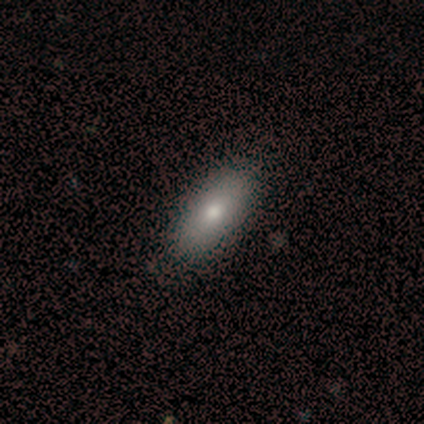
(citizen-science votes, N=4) Smooth or featured? smooth (50%, tied with featured or disk)
How rounded? in between (100%)
Merging? none (100%)